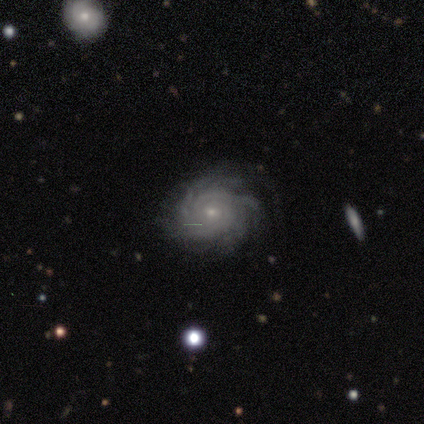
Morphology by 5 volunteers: Smooth or featured? featured or disk (100%)
Edge-on disk? no (100%)
Bar? no (100%)
Spiral arms? yes (100%)
Spiral winding? tight (100%)
Spiral arm count? can't tell (60%)
Bulge size? small (60%)
Merging? minor disturbance (60%)